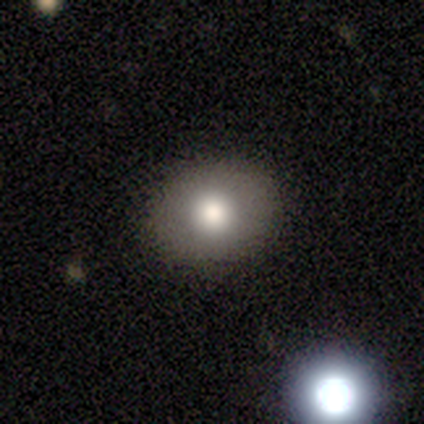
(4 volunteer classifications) Volunteers were most divided on "how rounded": round: 67%, in between: 33%, cigar-shaped: 0%. More confident: merging — none (100%); smooth or featured — smooth (75%).